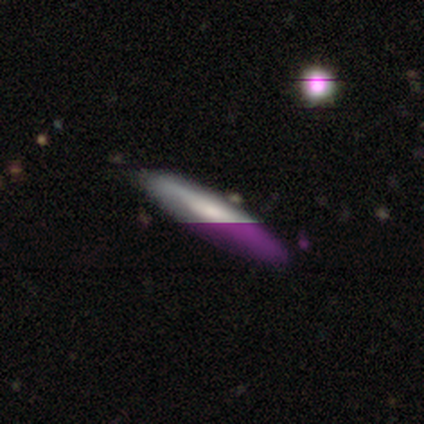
Smooth or featured: smooth — 40% (tied with featured or disk — 40%)
How rounded: round — 50% (tied with in between — 50%)
Merging: none — 100%